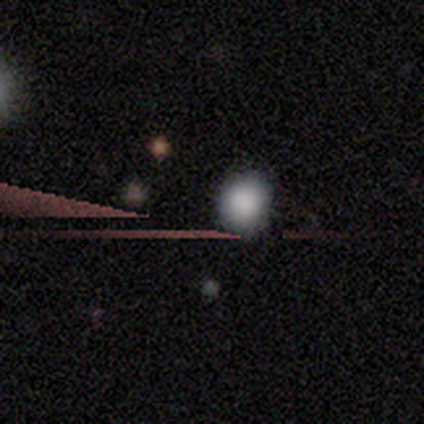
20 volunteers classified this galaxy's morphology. Smooth or featured?
  - smooth: 70% *
  - star or artifact: 25%
  - featured or disk: 5%
How rounded?
  - round: 93% *
  - in between: 7%
  - cigar-shaped: 0%
Merging?
  - none: 80% *
  - minor disturbance: 13%
  - major disturbance: 7%
  - merger: 0%